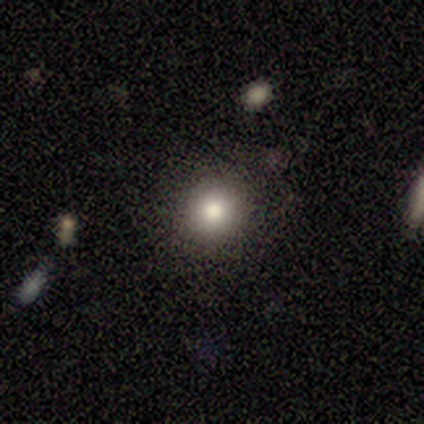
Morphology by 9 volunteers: Smooth or featured: smooth — 89% (star or artifact — 11%)
How rounded: round — 100%
Merging: none — 100%